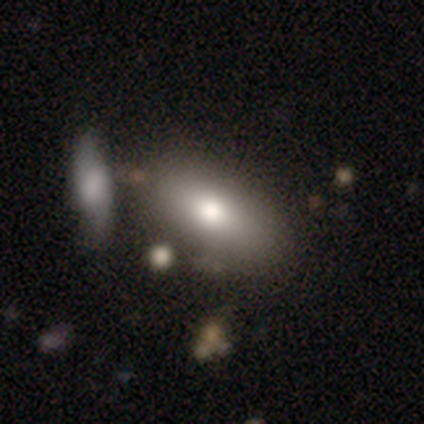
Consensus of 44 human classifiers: Smooth or featured? smooth (70%)
How rounded? in between (84%)
Merging? none (68%)